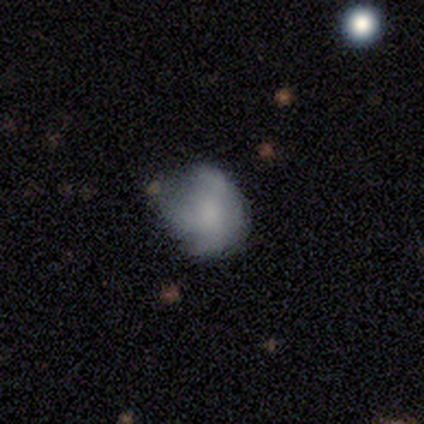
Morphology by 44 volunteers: Smooth or featured? smooth (59%)
How rounded? round (58%)
Merging? minor disturbance (51%)